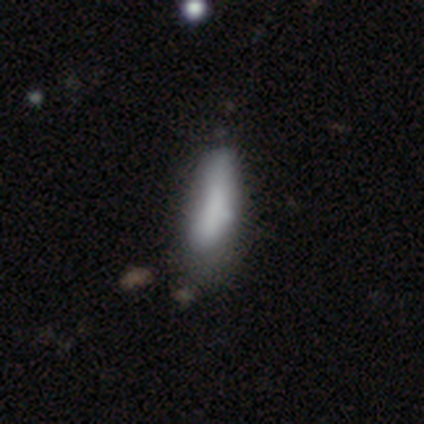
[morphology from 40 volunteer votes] smooth_or_featured: smooth (p=0.68) [alt: featured or disk p=0.28]
how_rounded: cigar-shaped (p=0.59) [alt: in between p=0.41]
merging: none (p=0.37) [alt: minor disturbance p=0.26]